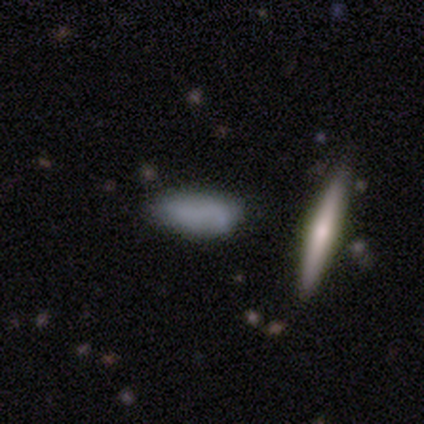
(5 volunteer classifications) Morphology: type=smooth (60%); roundness=cigar-shaped (67%); merging=none (60%).